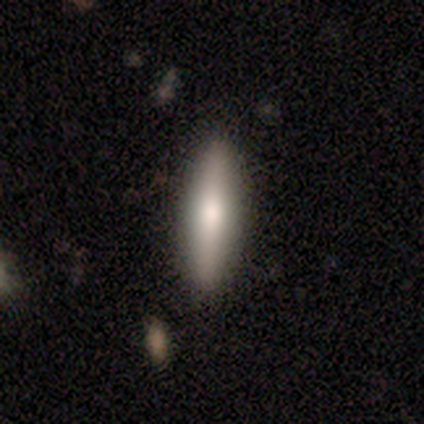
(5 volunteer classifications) smooth-or-featured: smooth: 100% | featured or disk: 0% | star or artifact: 0%
  how-rounded: cigar-shaped: 80% | in between: 20% | round: 0%
  merging: none: 80% | minor disturbance: 20% | major disturbance: 0% | merger: 0%